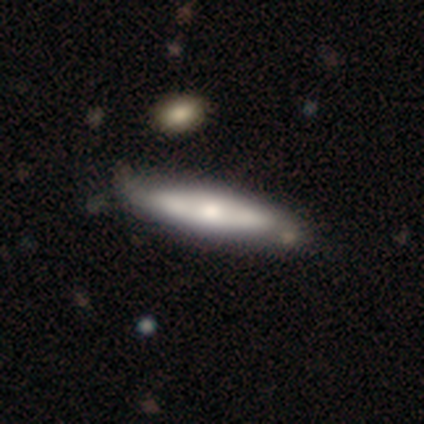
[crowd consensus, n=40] smooth_or_featured: smooth (p=0.55) [alt: featured or disk p=0.42]
how_rounded: cigar-shaped (p=0.77) [alt: in between p=0.23]
merging: none (p=0.56) [alt: minor disturbance p=0.13]